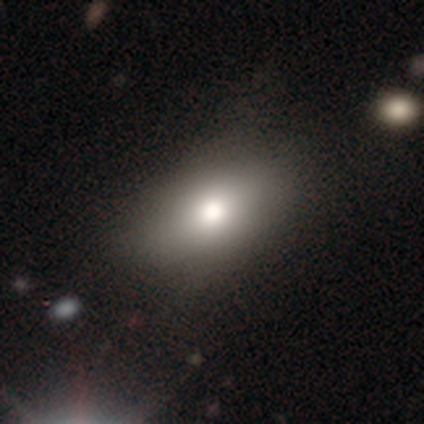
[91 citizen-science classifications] This is likely a smooth galaxy (76%). How rounded: likely in between (78%). Merging: likely none (72%).